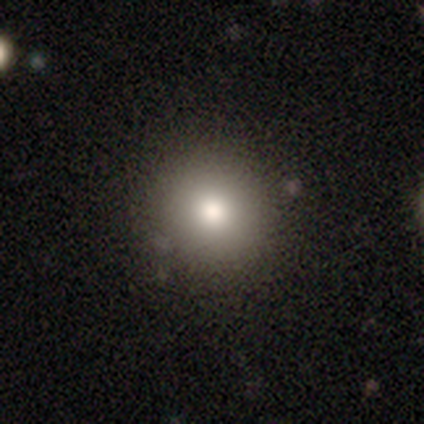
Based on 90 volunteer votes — This is clearly a smooth galaxy (80%). How rounded: clearly round (90%). Merging: clearly none (91%).